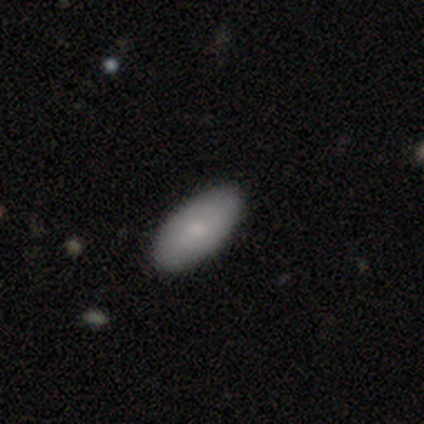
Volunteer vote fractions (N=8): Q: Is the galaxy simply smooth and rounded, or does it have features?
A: smooth — 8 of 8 (100%).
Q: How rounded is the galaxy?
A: in between — 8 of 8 (100%).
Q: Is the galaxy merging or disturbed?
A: none — 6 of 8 (75%).